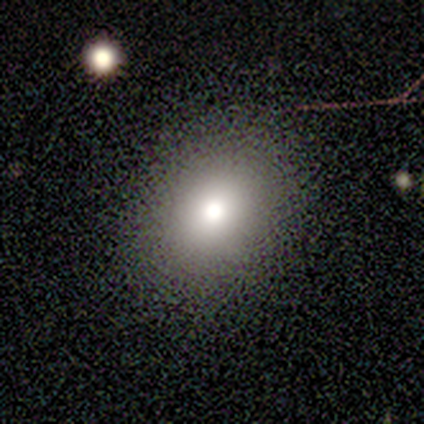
This appears to be a smooth galaxy with no disk features (57%) that is in between round and cigar-shaped (57%). Merging: none (93%).